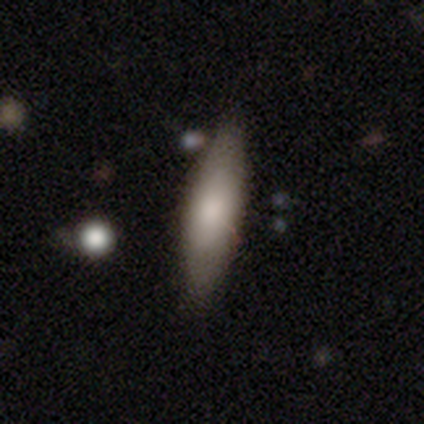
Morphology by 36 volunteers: Volunteers were most divided on "how rounded": in between: 64%, cigar-shaped: 36%, round: 0%. More confident: merging — none (86%); smooth or featured — smooth (69%).